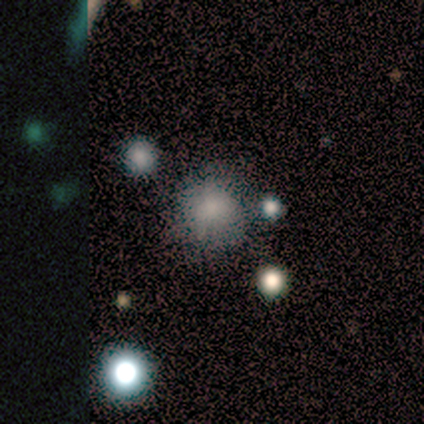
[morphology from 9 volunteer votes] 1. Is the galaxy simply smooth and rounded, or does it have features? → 89% smooth, 11% featured or disk, 0% star or artifact.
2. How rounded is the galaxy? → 100% round, 0% in between, 0% cigar-shaped.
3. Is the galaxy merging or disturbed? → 78% none, 11% minor disturbance, 11% major disturbance, 0% merger.